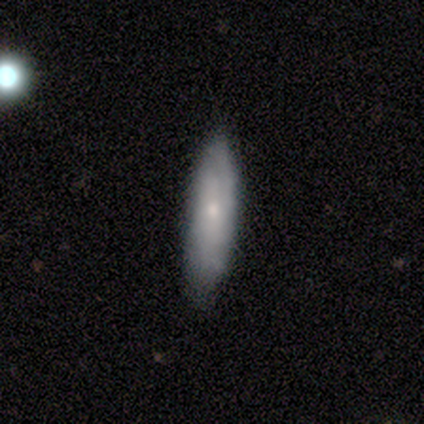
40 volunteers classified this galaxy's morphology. Smooth or featured? 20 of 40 (50%) said smooth. How rounded? 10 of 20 (50%, tied with cigar-shaped) said in between. Merging? 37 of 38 (97%) said none.